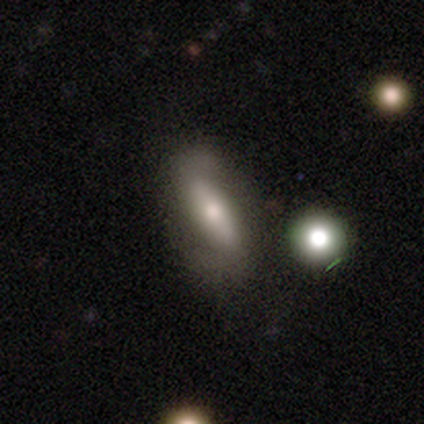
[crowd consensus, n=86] Q: Smooth or featured?
A: featured or disk (50%); runner-up: smooth (38%)
Q: Edge-on disk?
A: no (72%); runner-up: yes (28%)
Q: Bar?
A: strong (61%); runner-up: no (26%)
Q: Spiral arms?
A: yes (71%); runner-up: no (29%)
Q: Spiral winding?
A: loose (59%); runner-up: tight (23%)
Q: Spiral arm count?
A: 2 (86%); runner-up: can't tell (9%)
Q: Bulge size?
A: moderate (61%); runner-up: small (29%)
Q: Merging?
A: none (64%); runner-up: minor disturbance (18%)